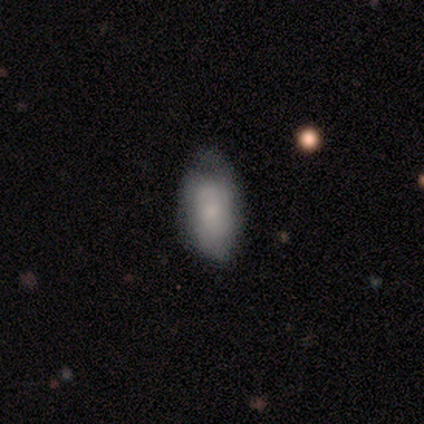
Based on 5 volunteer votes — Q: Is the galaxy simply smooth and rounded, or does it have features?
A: featured or disk — 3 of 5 (60%).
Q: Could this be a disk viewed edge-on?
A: no — 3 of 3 (100%).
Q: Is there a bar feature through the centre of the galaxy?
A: no — 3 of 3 (100%).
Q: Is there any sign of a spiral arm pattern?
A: no — 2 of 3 (67%).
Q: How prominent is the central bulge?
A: small — 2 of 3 (67%).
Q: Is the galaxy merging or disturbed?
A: none — 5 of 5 (100%).